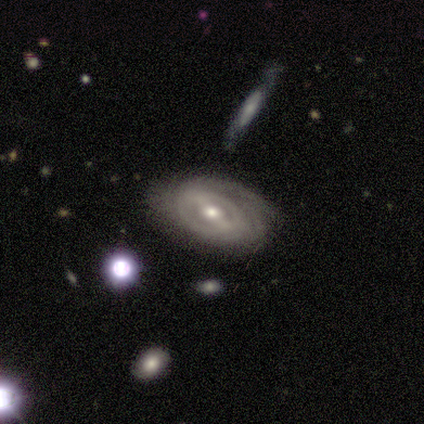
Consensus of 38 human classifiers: Volunteers were most divided on "bar" (2-way tie): strong: 38%, weak: 38%, no: 24%. Remaining: smooth or featured — featured or disk (95%); edge-on disk — no (94%); spiral arms — yes (91%); merging — none (70%); spiral winding — tight (65%); bulge size — moderate (53%); spiral arm count — can't tell (45%).